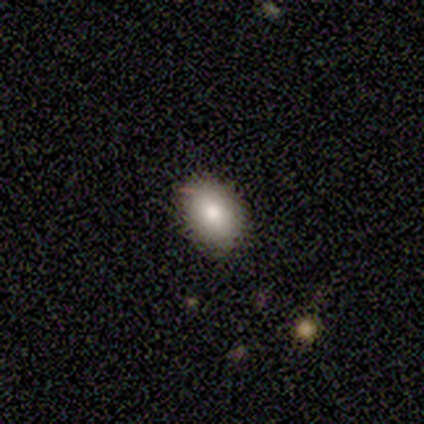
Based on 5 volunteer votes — This appears to be a smooth galaxy with no disk features (40%, tied with star or artifact) that is in between round and cigar-shaped (100%). Merging: none (67%).